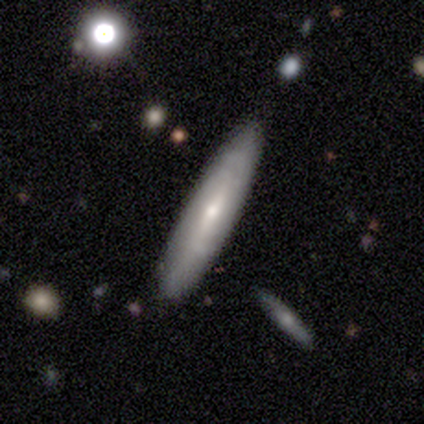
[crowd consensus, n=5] This is clearly a smooth galaxy (80%). How rounded: likely cigar-shaped (75%). Merging: clearly none (80%).